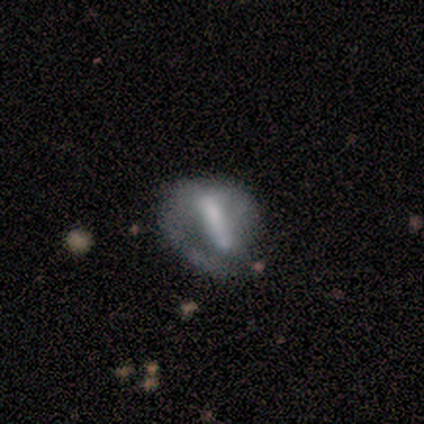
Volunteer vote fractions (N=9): Smooth or featured? 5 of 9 (56%) said smooth. How rounded? 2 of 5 (40%, tied with cigar-shaped) said in between. Merging? 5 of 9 (56%) said none.